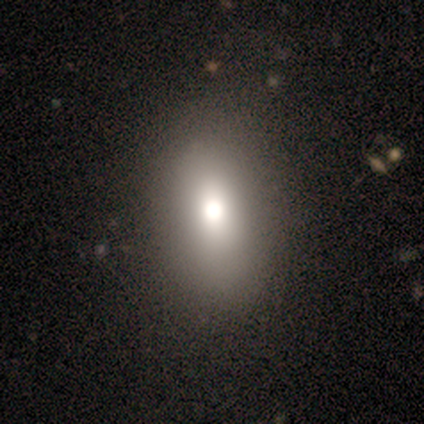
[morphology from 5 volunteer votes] A star or artifact, not a galaxy (60%).